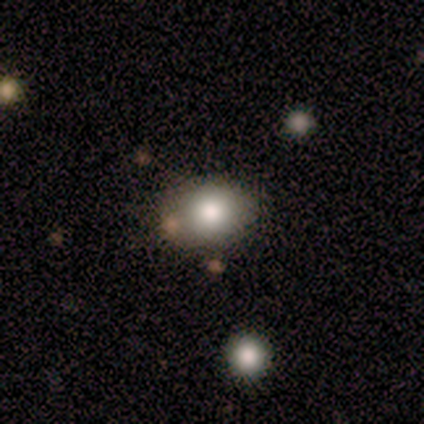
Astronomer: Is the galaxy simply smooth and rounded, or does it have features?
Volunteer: smooth — 40%, tied with star or artifact at 40%.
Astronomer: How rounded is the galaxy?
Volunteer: round — 50%, tied with in between at 50%.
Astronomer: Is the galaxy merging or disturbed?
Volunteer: none — 67%.